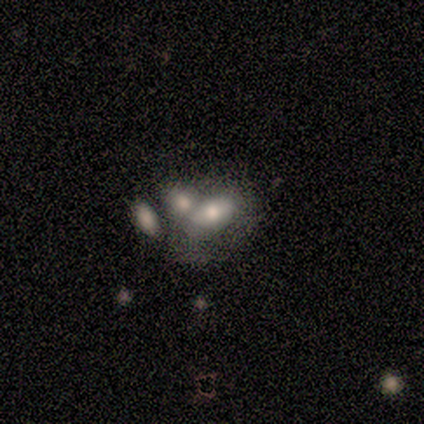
Smooth or featured? smooth (64%)
How rounded? in between (100%)
Merging? none (40%, tied with merger)